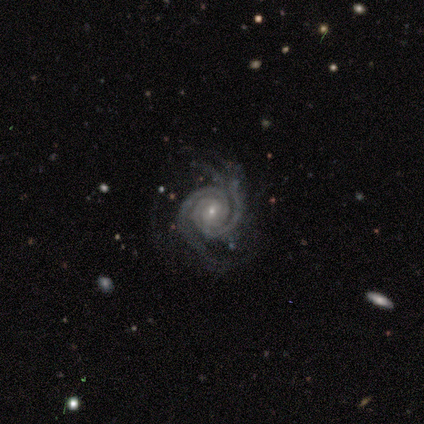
Smooth or featured?
  - featured or disk: 100% *
  - smooth: 0%
  - star or artifact: 0%
Edge-on disk?
  - no: 100% *
  - yes: 0%
Bar?
  - no: 80% *
  - weak: 20%
  - strong: 0%
Spiral arms?
  - yes: 100% *
  - no: 0%
Spiral winding?
  - tight: 80% *
  - medium: 20%
  - loose: 0%
Spiral arm count?
  - 2: 40% * (tied)
  - 3: 40% * (tied)
  - 4: 20%
  - 1: 0%
  - more than 4: 0%
  - can't tell: 0%
Bulge size?
  - moderate: 40% * (tied)
  - small: 40% * (tied)
  - none: 20%
  - dominant: 0%
  - large: 0%
Merging?
  - none: 60% *
  - minor disturbance: 20%
  - major disturbance: 20%
  - merger: 0%